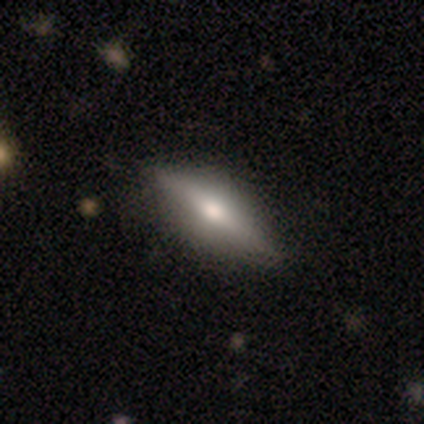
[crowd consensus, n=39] Smooth or featured? 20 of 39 (51%) said smooth. How rounded? 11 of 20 (55%) said cigar-shaped. Merging? 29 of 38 (76%) said none.